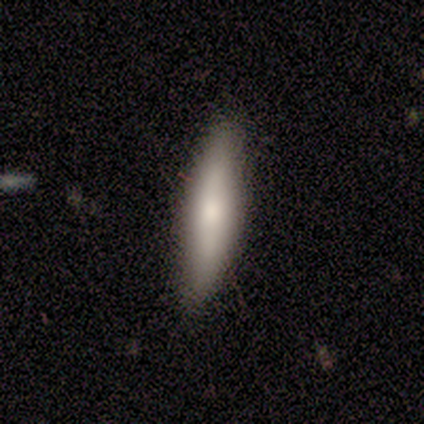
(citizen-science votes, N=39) This appears to be a smooth galaxy with no disk features (64%) that is cigar-shaped (76%). Merging: none (61%).